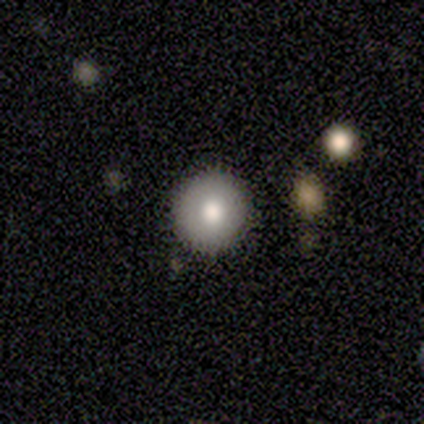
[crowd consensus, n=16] Overall: smooth (75%). How rounded: round (100%). Merging: none (100%).